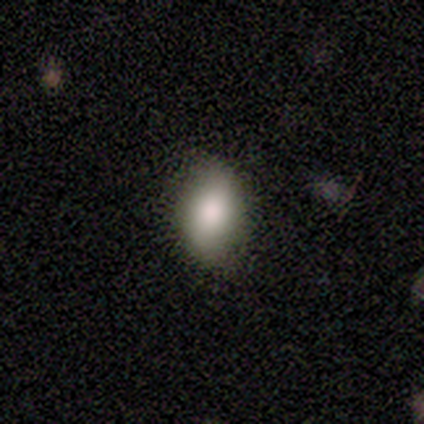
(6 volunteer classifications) Volunteers were most divided on "smooth or featured": smooth: 67%, featured or disk: 17%, star or artifact: 17%. More confident: merging — none (80%); how rounded — in between (75%).